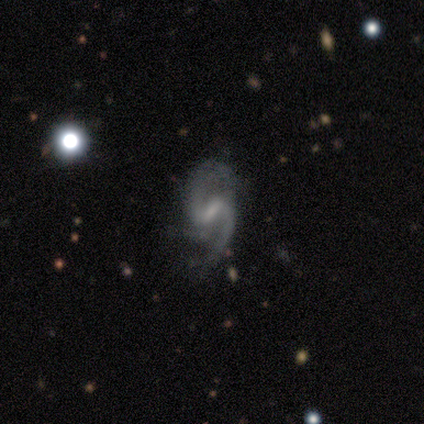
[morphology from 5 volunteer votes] Overall: featured or disk (100%). Edge-on disk: no (100%). Bar: weak (80%). Spiral arms: yes (100%). Spiral arm count: 2 (80%). Spiral winding: loose (60%; medium 40%). Bulge size: small (100%). Merging: none (100%).